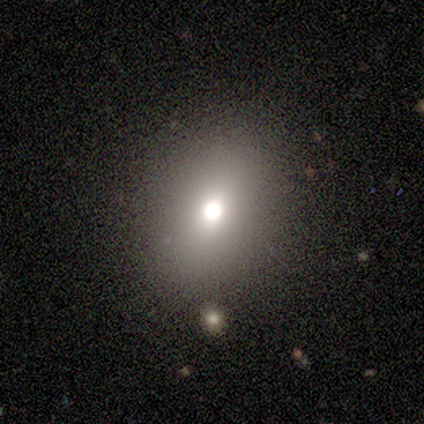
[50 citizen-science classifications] smooth-or-featured: smooth: 70% | featured or disk: 22% | star or artifact: 8%
  how-rounded: in between: 60% | round: 37% | cigar-shaped: 3%
  merging: none: 91% | minor disturbance: 7% | merger: 2% | major disturbance: 0%